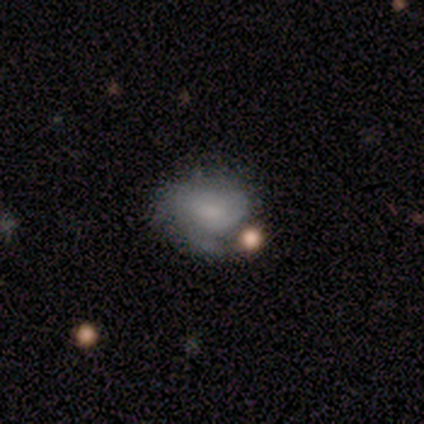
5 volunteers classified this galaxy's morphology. A smooth galaxy with no disk features (80%) that is in between round and cigar-shaped (100%).

Vote fractions:
- Smooth or featured? smooth: 80% / featured or disk: 20% / star or artifact: 0%
- How rounded? in between: 100% / round: 0% / cigar-shaped: 0%
- Merging? none: 60% / major disturbance: 20% / merger: 20% / minor disturbance: 0%